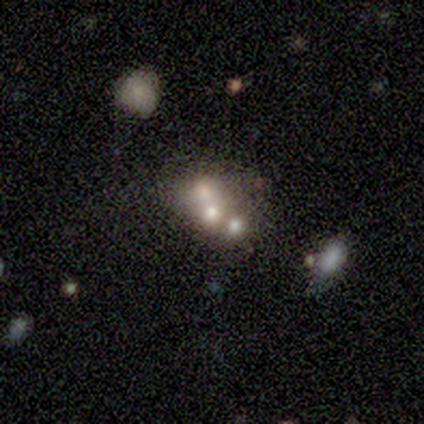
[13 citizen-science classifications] A smooth galaxy with no disk features (46%) that is round (50%, tied with in between). Merging: merger (70%).